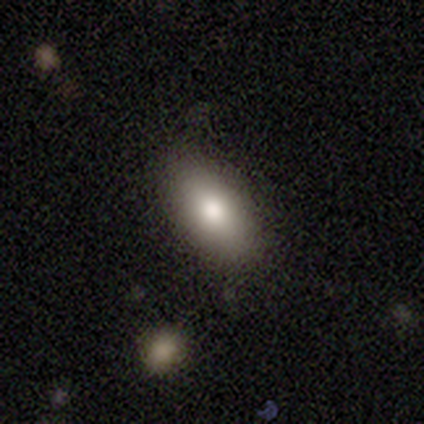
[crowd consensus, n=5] Volunteers were most divided on "merging": none: 60%, minor disturbance: 40%, major disturbance: 0%, merger: 0%. More confident: smooth or featured — smooth (100%); how rounded — in between (80%).